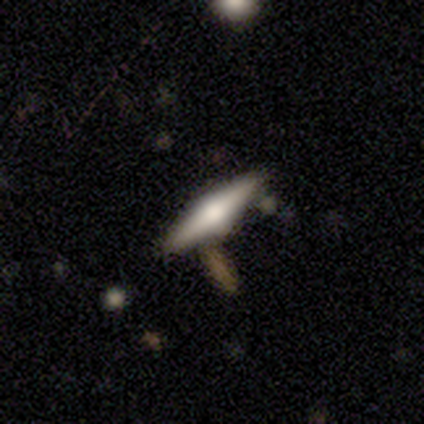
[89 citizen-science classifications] Q: Smooth or featured?
A: featured or disk (64%); runner-up: smooth (30%)
Q: Edge-on disk?
A: yes (98%); runner-up: no (2%)
Q: Edge-on bulge?
A: rounded (93%); runner-up: boxy (7%)
Q: Merging?
A: none (80%); runner-up: minor disturbance (11%)